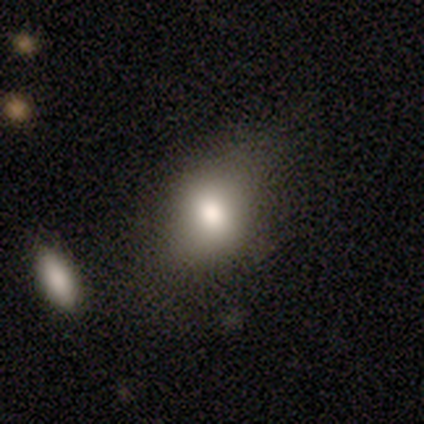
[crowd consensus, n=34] Smooth or featured: smooth — 79% (star or artifact — 15%)
How rounded: in between — 63% (round — 37%)
Merging: none — 69% (minor disturbance — 21%)